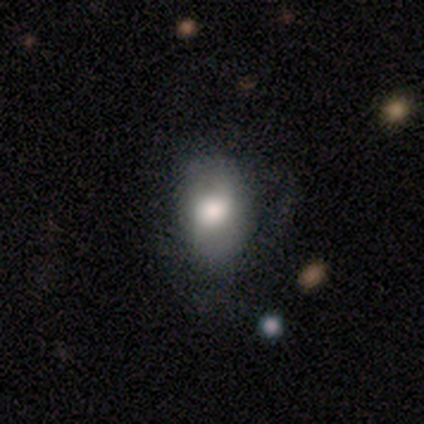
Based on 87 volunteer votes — Smooth or featured? 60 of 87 (69%) said smooth. How rounded? 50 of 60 (83%) said in between. Merging? 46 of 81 (57%) said none.